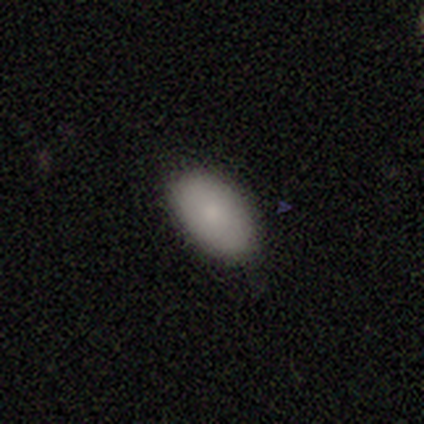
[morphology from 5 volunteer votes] A smooth galaxy with no disk features (100%) that is in between round and cigar-shaped (100%). Merging: none (100%).